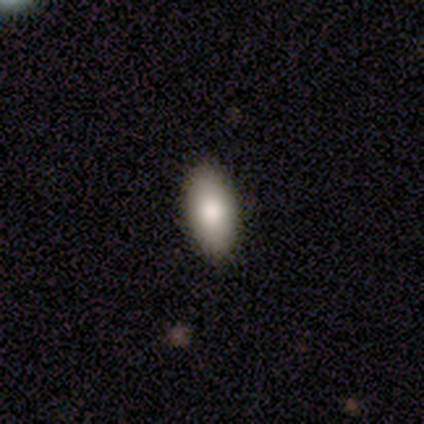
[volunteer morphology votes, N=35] Volunteers were most divided on "merging": none: 85%, minor disturbance: 15%, major disturbance: 0%, merger: 0%. More confident: how rounded — in between (93%); smooth or featured — smooth (86%).